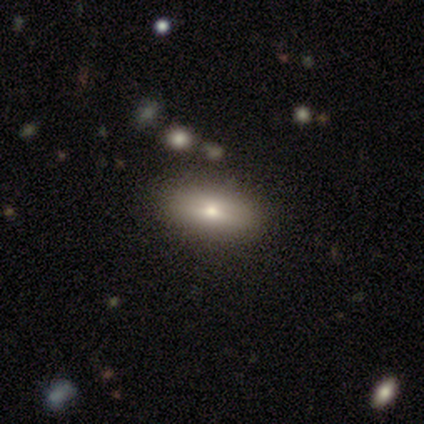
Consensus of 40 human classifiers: smooth-or-featured: smooth: 60% | featured or disk: 38% | star or artifact: 2%
  how-rounded: in between: 96% | cigar-shaped: 4% | round: 0%
  merging: none: 69% | minor disturbance: 5% | merger: 5% | major disturbance: 0%